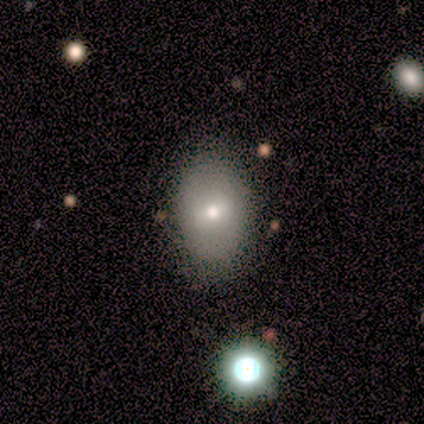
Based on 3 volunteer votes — Smooth or featured: smooth — 67% (star or artifact — 33%)
How rounded: in between — 100%
Merging: none — 100%